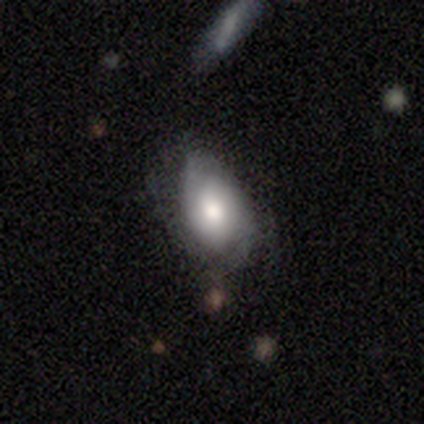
Smooth or featured: featured or disk — 80% (smooth — 20%)
Edge-on disk: no — 100%
Bar: no — 75% (weak — 25%)
Spiral arms: yes — 100%
Spiral winding: medium — 50% (tight — 25%)
Spiral arm count: 2 — 50% (tied with can't tell — 50%)
Bulge size: moderate — 100%
Merging: minor disturbance — 60% (none — 40%)